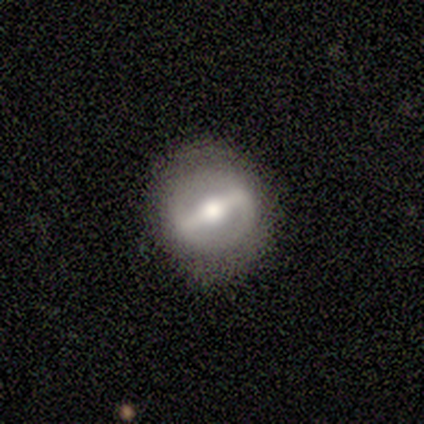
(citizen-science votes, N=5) Morphology: type=featured or disk (100%); edge-on=no (100%); bar=strong (100%); spiral arms=no (100%); bulge=moderate (60%); merging=none (80%).